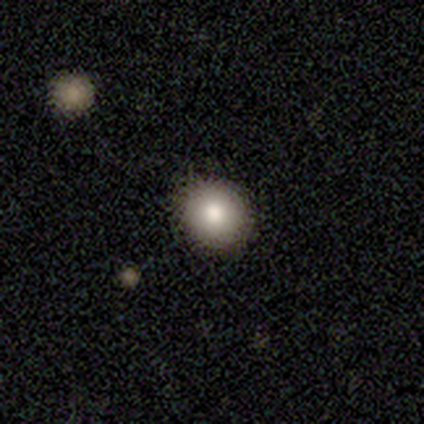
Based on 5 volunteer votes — smooth 80%, featured or disk 20%, star or artifact 0%. Down the decision tree: how rounded — round (100%); merging — none (80%).